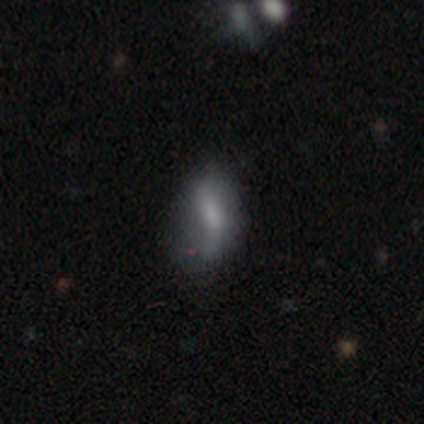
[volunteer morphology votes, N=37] Smooth or featured?
  - smooth: 51% *
  - featured or disk: 43%
  - star or artifact: 5%
How rounded?
  - in between: 84% *
  - round: 11%
  - cigar-shaped: 5%
Merging?
  - none: 49% *
  - minor disturbance: 43%
  - major disturbance: 9%
  - merger: 0%